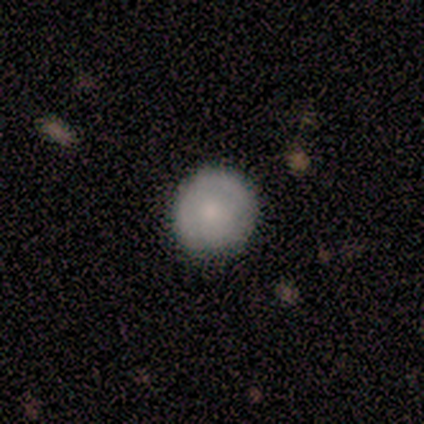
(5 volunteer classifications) Smooth or featured: smooth — 100%
How rounded: round — 100%
Merging: none — 80% (merger — 20%)